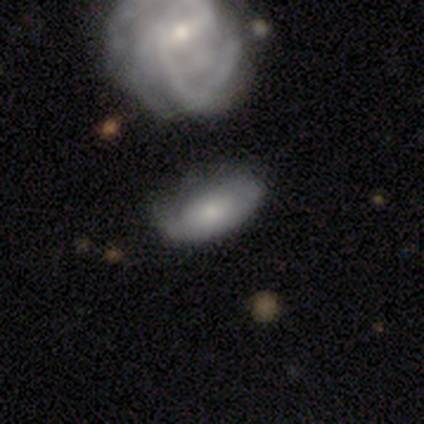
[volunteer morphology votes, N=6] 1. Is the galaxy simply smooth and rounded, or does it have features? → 67% featured or disk, 33% smooth, 0% star or artifact.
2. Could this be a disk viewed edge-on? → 75% no, 25% yes.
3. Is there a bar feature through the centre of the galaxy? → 100% no, 0% strong, 0% weak.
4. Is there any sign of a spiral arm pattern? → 67% yes, 33% no.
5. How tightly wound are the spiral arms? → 100% tight, 0% medium, 0% loose.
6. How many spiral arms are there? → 100% can't tell, 0% 1, 0% 2, 0% 3, 0% 4, 0% more than 4.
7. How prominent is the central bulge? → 100% small, 0% dominant, 0% large, 0% moderate, 0% none.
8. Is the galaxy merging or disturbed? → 50% minor disturbance, 33% none, 17% merger, 0% major disturbance.